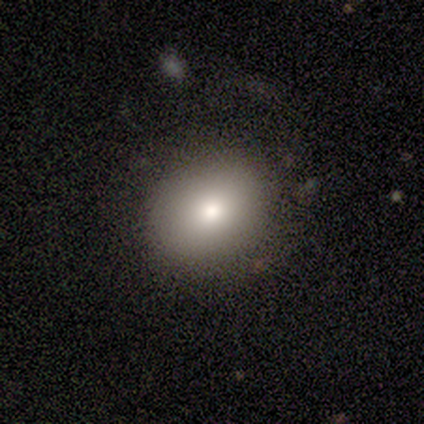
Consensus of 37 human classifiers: Smooth or featured? 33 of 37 (89%) said smooth. How rounded? 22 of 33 (67%) said round. Merging? 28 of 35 (80%) said none.